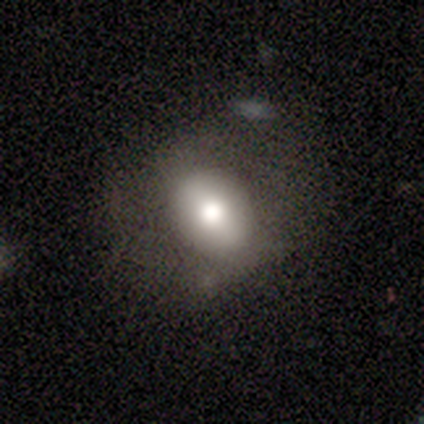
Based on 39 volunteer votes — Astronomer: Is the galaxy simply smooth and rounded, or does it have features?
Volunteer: smooth — 64%.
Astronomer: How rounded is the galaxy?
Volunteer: in between — 60% (runner-up: round, 36%).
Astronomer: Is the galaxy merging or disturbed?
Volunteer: none — 60%.